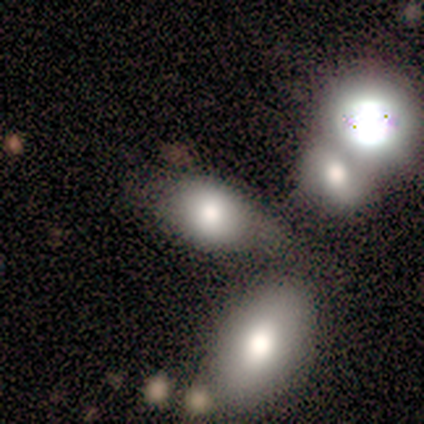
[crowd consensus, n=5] smooth-or-featured: smooth: 100% | featured or disk: 0% | star or artifact: 0%
  how-rounded: in between: 80% | round: 20% | cigar-shaped: 0%
  merging: none: 40% (tied) | merger: 40% (tied) | minor disturbance: 20% | major disturbance: 0%